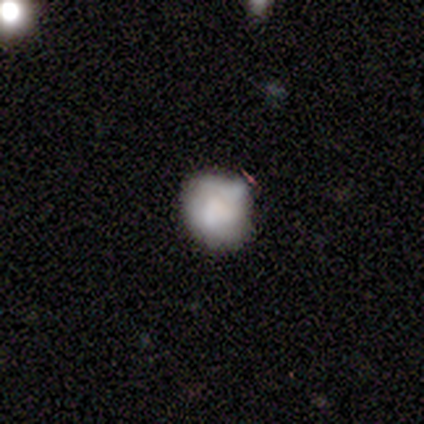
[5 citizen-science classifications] Overall: smooth (60%; featured or disk 40%). How rounded: round (100%). Merging: none (60%; minor disturbance 20%).